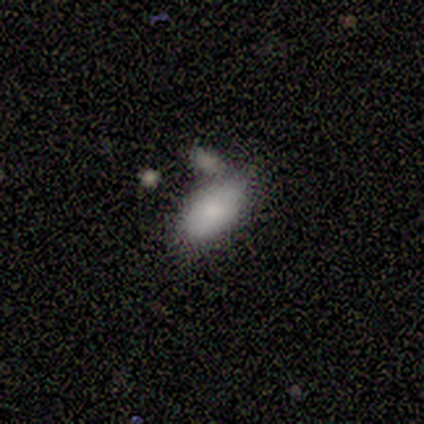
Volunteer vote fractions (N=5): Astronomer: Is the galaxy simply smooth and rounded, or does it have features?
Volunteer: smooth — 80%.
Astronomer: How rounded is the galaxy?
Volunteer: in between — 100%.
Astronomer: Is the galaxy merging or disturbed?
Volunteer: none — 100%.